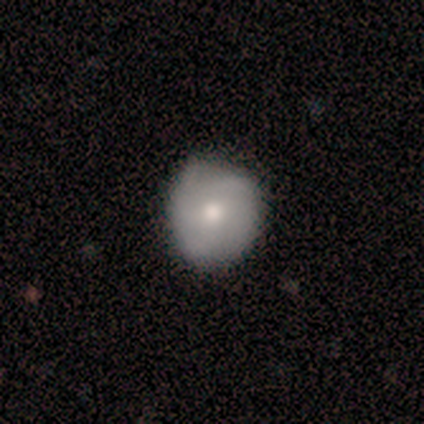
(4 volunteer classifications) smooth-or-featured: smooth: 100% | featured or disk: 0% | star or artifact: 0%
  how-rounded: round: 100% | in between: 0% | cigar-shaped: 0%
  merging: none: 75% | minor disturbance: 25% | major disturbance: 0% | merger: 0%